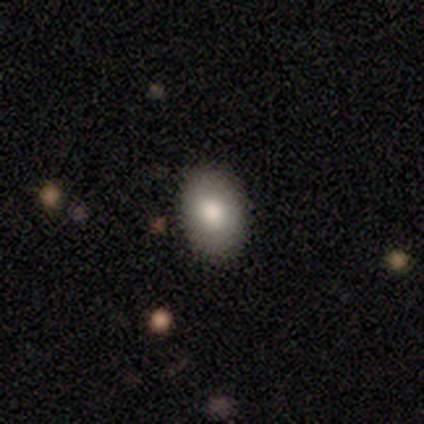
Smooth or featured?
  - smooth: 80% *
  - star or artifact: 20%
  - featured or disk: 0%
How rounded?
  - in between: 100% *
  - round: 0%
  - cigar-shaped: 0%
Merging?
  - none: 100% *
  - minor disturbance: 0%
  - major disturbance: 0%
  - merger: 0%